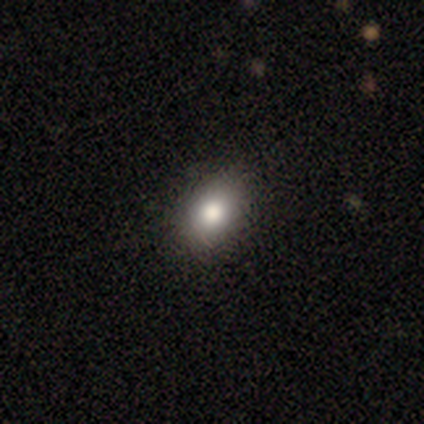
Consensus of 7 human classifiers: A smooth galaxy with no disk features (57%) that is in between round and cigar-shaped (75%). Merging: none (100%).